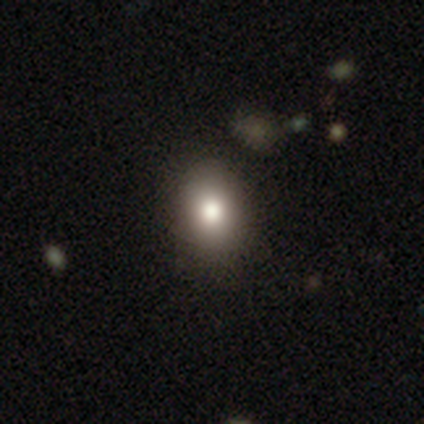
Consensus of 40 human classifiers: Smooth or featured? smooth (80%)
How rounded? in between (78%)
Merging? none (68%)